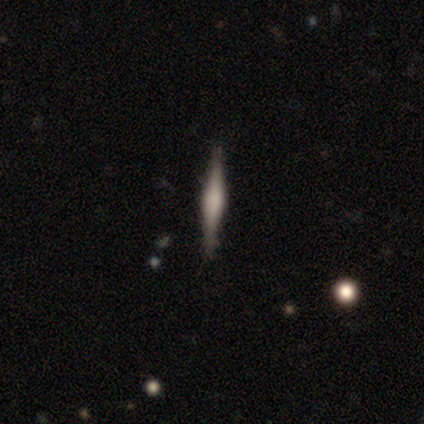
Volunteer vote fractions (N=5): smooth-or-featured: featured or disk: 80% | smooth: 20% | star or artifact: 0%
  disk-edge-on: yes: 75% | no: 25%
    edge-on-bulge: none: 67% | boxy: 33% | rounded: 0%
  merging: none: 80% | minor disturbance: 20% | major disturbance: 0% | merger: 0%